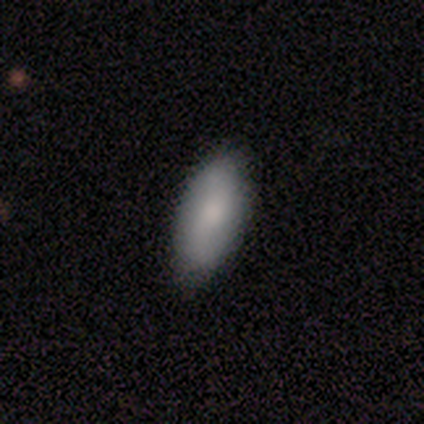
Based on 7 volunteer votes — Volunteers were most divided on "smooth or featured": smooth: 71%, featured or disk: 29%, star or artifact: 0%. More confident: how rounded — in between (80%); merging — none (71%).